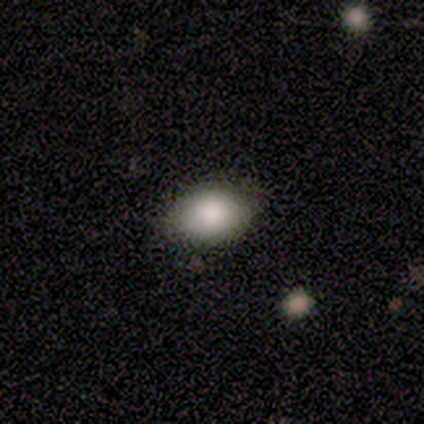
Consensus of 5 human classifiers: This appears to be a smooth galaxy with no disk features (100%) that is in between round and cigar-shaped (100%). Merging: none (100%).